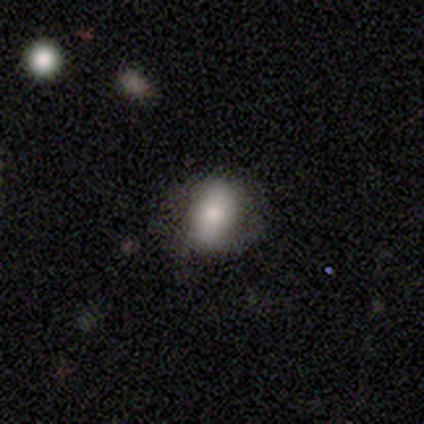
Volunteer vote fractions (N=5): Smooth or featured? smooth (80%)
How rounded? in between (50%)
Merging? none (80%)